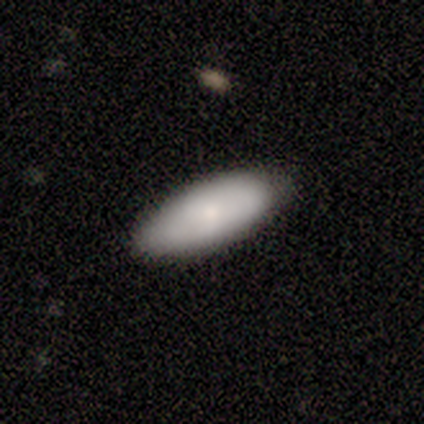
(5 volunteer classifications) A smooth galaxy with no disk features (60%) that is in between round and cigar-shaped (67%). Merging: none (100%).